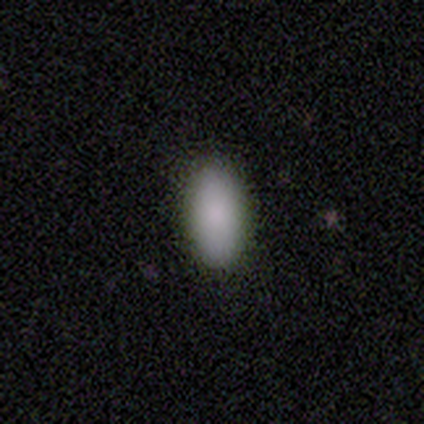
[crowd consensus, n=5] A smooth galaxy with no disk features (100%) that is in between round and cigar-shaped (100%).

Vote fractions:
- Smooth or featured? smooth: 100% / featured or disk: 0% / star or artifact: 0%
- How rounded? in between: 100% / round: 0% / cigar-shaped: 0%
- Merging? none: 80% / minor disturbance: 20% / major disturbance: 0% / merger: 0%